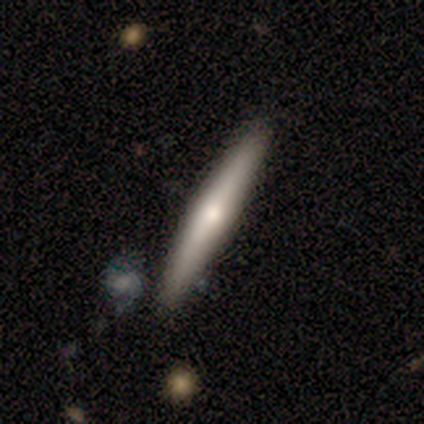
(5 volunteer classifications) featured or disk 100%, smooth 0%, star or artifact 0%. Down the decision tree: edge-on disk — yes (100%); edge-on bulge — rounded (100%); merging — none (80%).